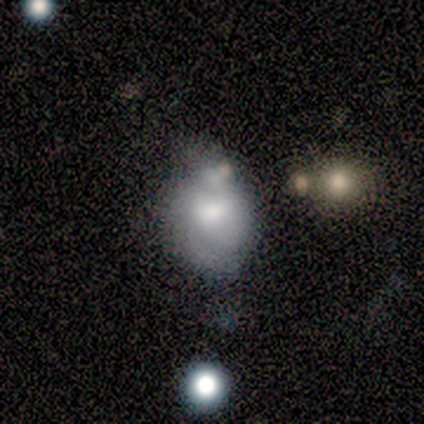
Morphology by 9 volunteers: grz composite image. It shows a smooth galaxy with no disk features (44%) that is round (50%, tied with in between). Merging: minor disturbance (71%).